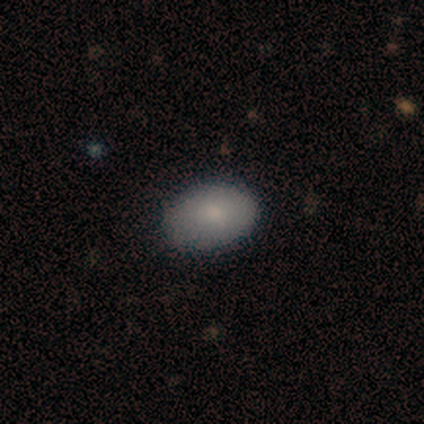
Q: Smooth or featured?
A: smooth (92%); runner-up: featured or disk (8%)
Q: How rounded?
A: in between (100%)
Q: Merging?
A: none (100%)